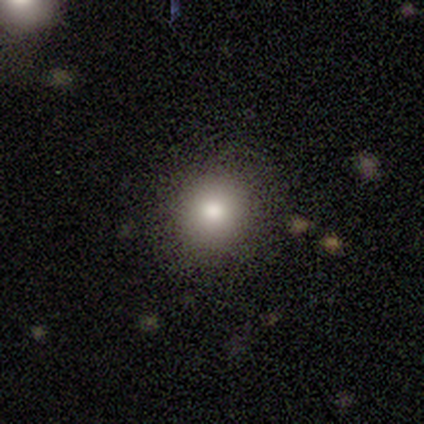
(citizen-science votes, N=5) Smooth or featured?
  - smooth: 80% *
  - star or artifact: 20%
  - featured or disk: 0%
How rounded?
  - round: 100% *
  - in between: 0%
  - cigar-shaped: 0%
Merging?
  - none: 100% *
  - minor disturbance: 0%
  - major disturbance: 0%
  - merger: 0%